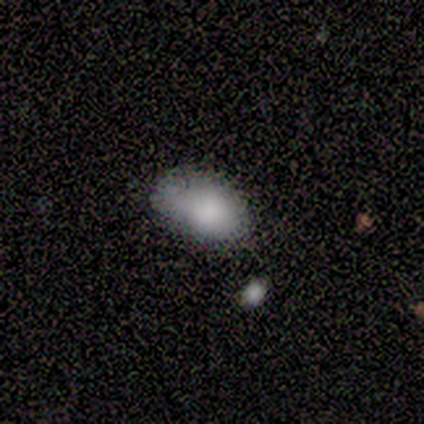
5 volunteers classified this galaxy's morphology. smooth_or_featured: smooth (p=1.00)
how_rounded: in between (p=0.80) [alt: round p=0.20]
merging: none (p=0.60) [alt: minor disturbance p=0.20]